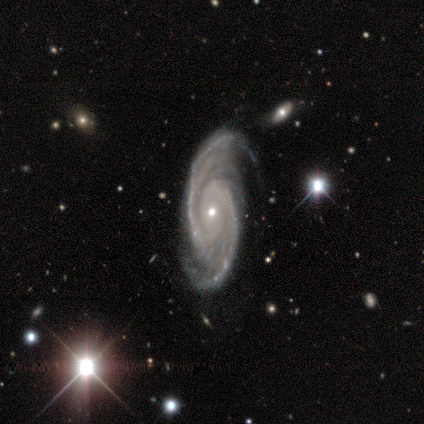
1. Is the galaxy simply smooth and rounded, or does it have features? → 100% featured or disk, 0% smooth, 0% star or artifact.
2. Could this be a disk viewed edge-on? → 100% no, 0% yes.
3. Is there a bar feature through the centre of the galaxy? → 60% no, 40% weak, 0% strong.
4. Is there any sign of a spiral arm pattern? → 100% yes, 0% no.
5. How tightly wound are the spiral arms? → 80% medium, 20% tight, 0% loose.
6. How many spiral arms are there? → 100% 2, 0% 1, 0% 3, 0% 4, 0% more than 4, 0% can't tell.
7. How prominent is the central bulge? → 80% small, 20% moderate, 0% dominant, 0% large, 0% none.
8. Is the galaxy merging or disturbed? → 80% none, 20% minor disturbance, 0% major disturbance, 0% merger.